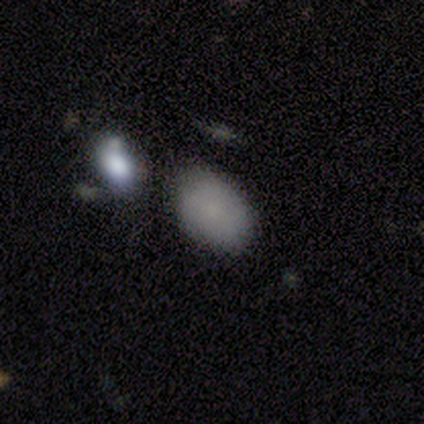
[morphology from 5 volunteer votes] Overall: smooth (80%). How rounded: in between (75%). Merging: none (50%, tied with merger).